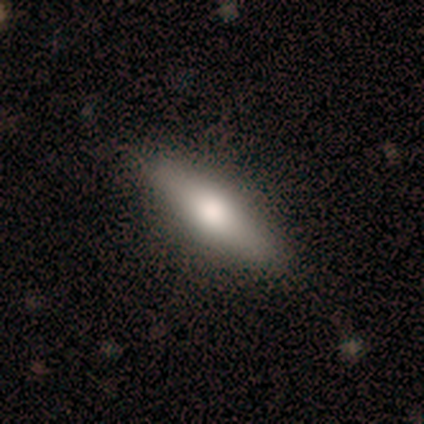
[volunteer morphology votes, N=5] Q: Smooth or featured?
A: smooth (60%); runner-up: featured or disk (40%)
Q: How rounded?
A: cigar-shaped (100%)
Q: Merging?
A: none (100%)